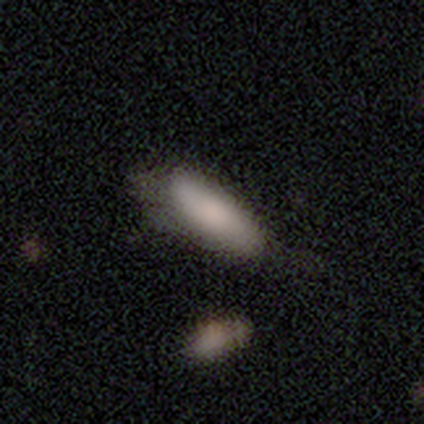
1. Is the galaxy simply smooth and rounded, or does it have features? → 87% smooth, 13% featured or disk, 0% star or artifact.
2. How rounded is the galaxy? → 73% in between, 27% cigar-shaped, 0% round.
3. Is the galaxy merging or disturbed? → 37% minor disturbance, 34% none, 13% merger, 3% major disturbance.